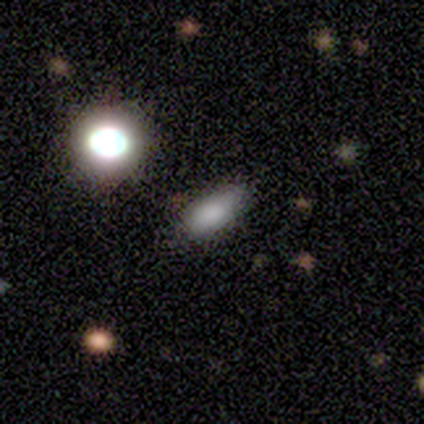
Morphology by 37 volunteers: smooth-or-featured: smooth: 78% | star or artifact: 19% | featured or disk: 3%
  how-rounded: in between: 79% | cigar-shaped: 14% | round: 7%
  merging: none: 77% | minor disturbance: 17% | major disturbance: 3% | merger: 3%